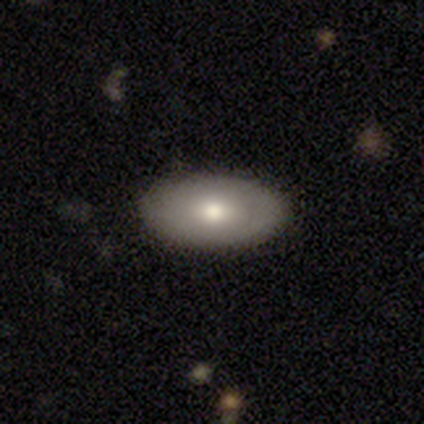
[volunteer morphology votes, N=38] Smooth or featured?
  - smooth: 66% *
  - featured or disk: 32%
  - star or artifact: 3%
How rounded?
  - in between: 92% *
  - round: 4%
  - cigar-shaped: 4%
Merging?
  - none: 89% *
  - minor disturbance: 11%
  - major disturbance: 0%
  - merger: 0%